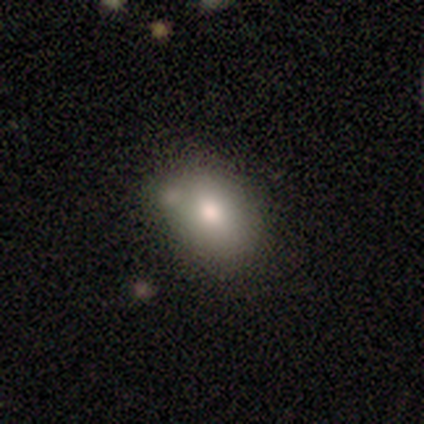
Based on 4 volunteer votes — A smooth galaxy with no disk features (100%) that is in between round and cigar-shaped (75%).

Vote fractions:
- Smooth or featured? smooth: 100% / featured or disk: 0% / star or artifact: 0%
- How rounded? in between: 75% / round: 25% / cigar-shaped: 0%
- Merging? minor disturbance: 50% (tied) / merger: 50% (tied) / none: 0% / major disturbance: 0%